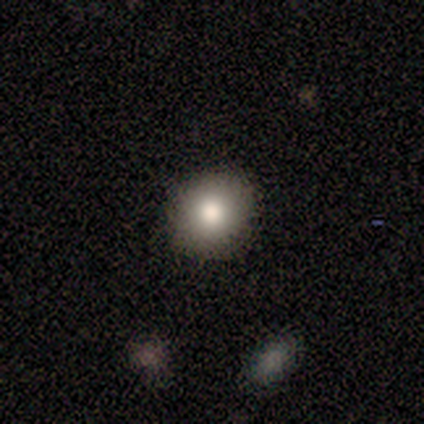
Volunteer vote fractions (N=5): smooth-or-featured: smooth: 80% | featured or disk: 20% | star or artifact: 0%
  how-rounded: in between: 75% | round: 25% | cigar-shaped: 0%
  merging: none: 80% | minor disturbance: 20% | major disturbance: 0% | merger: 0%